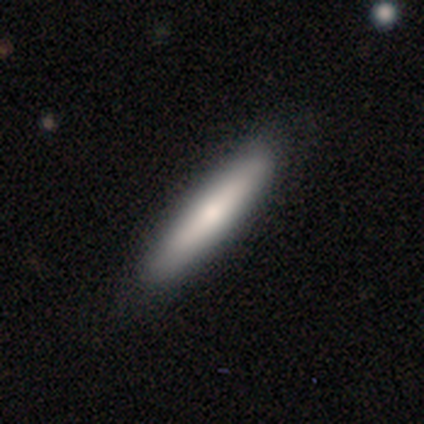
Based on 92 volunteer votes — smooth-or-featured: smooth: 74% | featured or disk: 23% | star or artifact: 3%
  how-rounded: cigar-shaped: 93% | in between: 7% | round: 0%
  merging: none: 90% | minor disturbance: 9% | major disturbance: 1% | merger: 0%